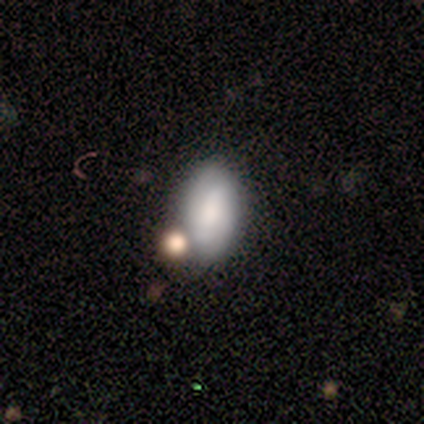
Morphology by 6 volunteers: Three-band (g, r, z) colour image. It shows a smooth galaxy with no disk features (100%) that is in between round and cigar-shaped (83%). Merging: none (33%, tied with merger).